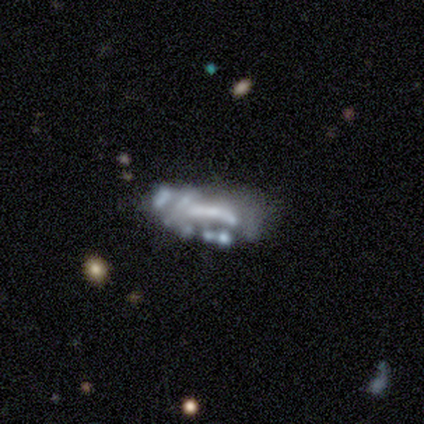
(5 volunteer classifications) smooth_or_featured: featured or disk (p=0.60) [alt: star or artifact p=0.40]
disk_edge_on: no (p=1.00)
bar: no (p=1.00)
has_spiral_arms: no (p=1.00)
bulge_size: none (p=1.00)
merging: minor disturbance (p=0.33) [tied with: major disturbance p=0.33, merger p=0.33]